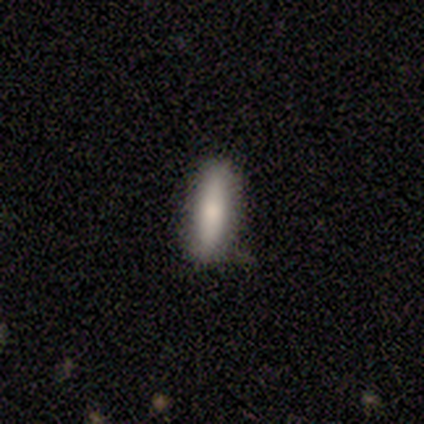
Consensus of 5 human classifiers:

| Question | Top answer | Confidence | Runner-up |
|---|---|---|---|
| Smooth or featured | smooth | 80% | featured or disk (20%) |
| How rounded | cigar-shaped | 75% | in between (25%) |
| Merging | none | 100% | — |